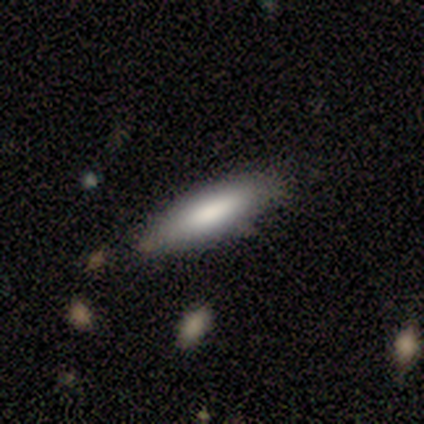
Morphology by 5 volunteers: This is clearly a smooth galaxy (100%). How rounded: clearly cigar-shaped (80%). Merging: clearly none (80%).